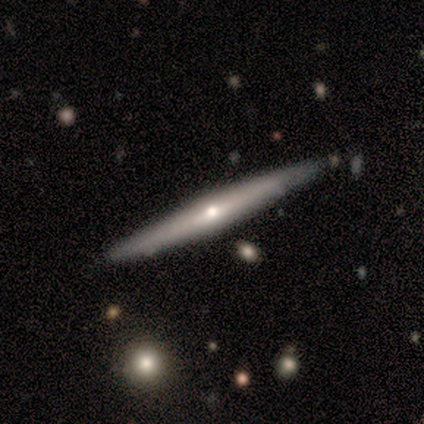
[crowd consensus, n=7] smooth-or-featured: featured or disk: 71% | smooth: 29% | star or artifact: 0%
  disk-edge-on: yes: 100% | no: 0%
    edge-on-bulge: rounded: 80% | none: 20% | boxy: 0%
  merging: none: 57% | minor disturbance: 43% | major disturbance: 0% | merger: 0%